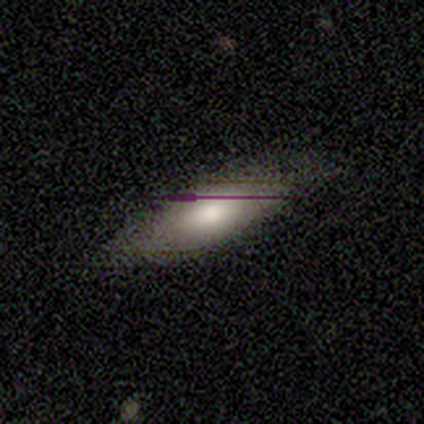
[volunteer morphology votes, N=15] Q: Smooth or featured?
A: smooth (60%); runner-up: featured or disk (33%)
Q: How rounded?
A: in between (78%); runner-up: cigar-shaped (22%)
Q: Merging?
A: none (79%); runner-up: minor disturbance (7%)